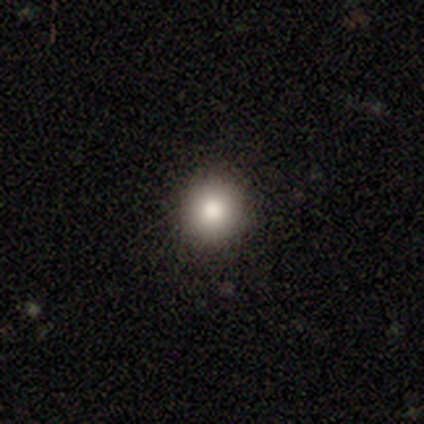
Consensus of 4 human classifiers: smooth_or_featured: smooth (p=0.50) [alt: featured or disk p=0.25]
how_rounded: round (p=1.00)
merging: none (p=1.00)